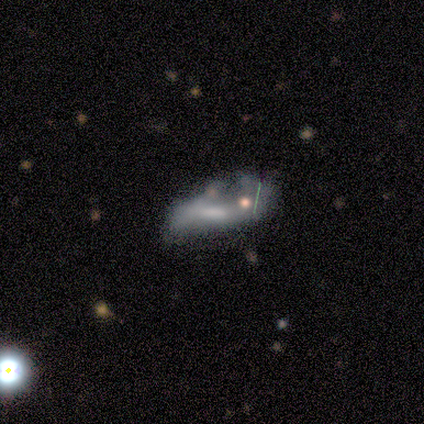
featured or disk 66%, smooth 32%, star or artifact 3%. Down the decision tree: edge-on disk — no (92%); bar — weak (43%); spiral arms — yes (52%); spiral arm count — 2 (75%); spiral winding — loose (83%); bulge size — none (43%); merging — major disturbance (30%).